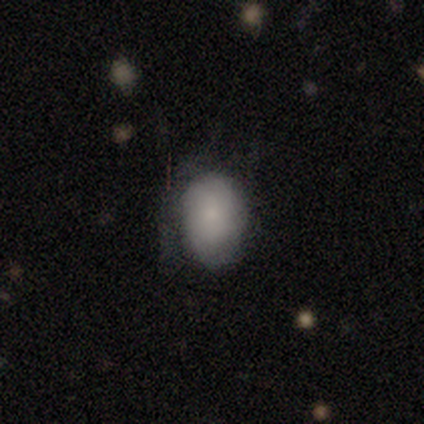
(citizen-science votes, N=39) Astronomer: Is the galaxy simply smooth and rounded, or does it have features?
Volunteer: smooth — 85%.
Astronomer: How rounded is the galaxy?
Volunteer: in between — 88%.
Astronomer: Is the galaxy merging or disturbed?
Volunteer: none — 57%.